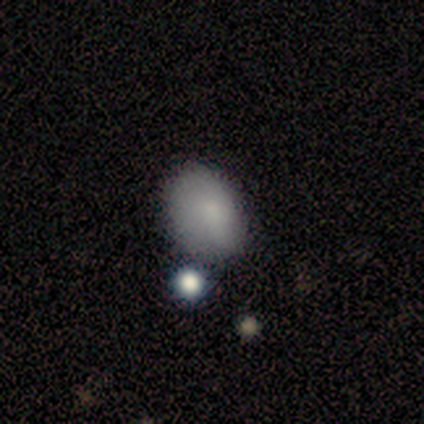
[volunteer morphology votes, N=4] Smooth or featured? 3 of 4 (75%) said smooth. How rounded? 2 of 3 (67%) said in between. Merging? 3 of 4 (75%) said none.